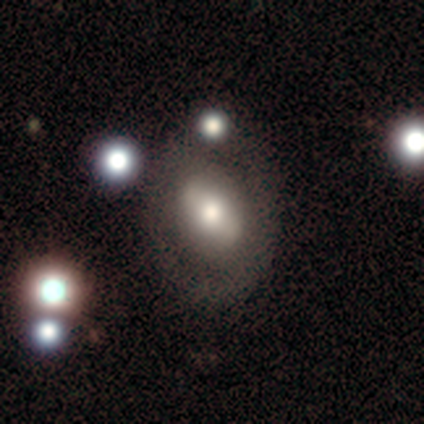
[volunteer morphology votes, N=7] This is possibly a smooth galaxy (57%). How rounded: likely in between (75%). Merging: clearly none (86%).